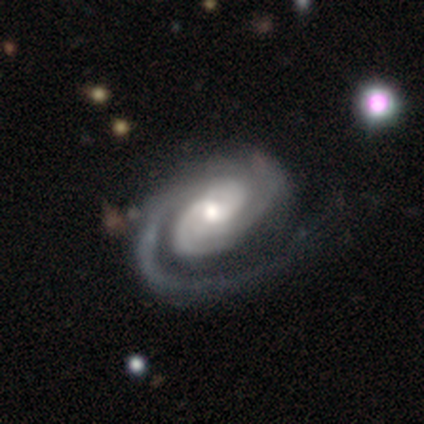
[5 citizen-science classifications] Smooth or featured? 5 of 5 (100%) said featured or disk. Edge-on disk? 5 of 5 (100%) said no. Bar? 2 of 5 (40%, tied with no) said weak. Spiral arms? 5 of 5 (100%) said yes. Spiral winding? 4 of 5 (80%) said tight. Spiral arm count? 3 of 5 (60%) said 1. Bulge size? 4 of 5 (80%) said moderate. Merging? 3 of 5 (60%) said minor disturbance.